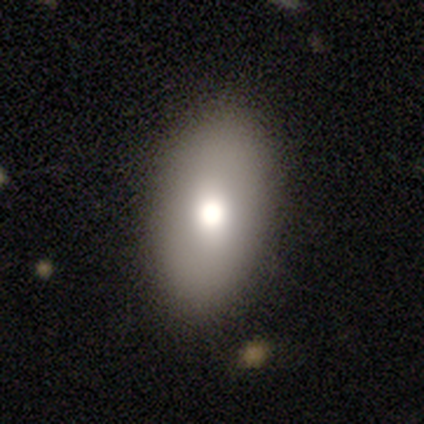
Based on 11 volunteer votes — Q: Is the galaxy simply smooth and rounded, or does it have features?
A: smooth — 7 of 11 (64%).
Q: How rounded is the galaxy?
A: in between — 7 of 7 (100%).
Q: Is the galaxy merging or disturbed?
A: none — 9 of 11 (82%).